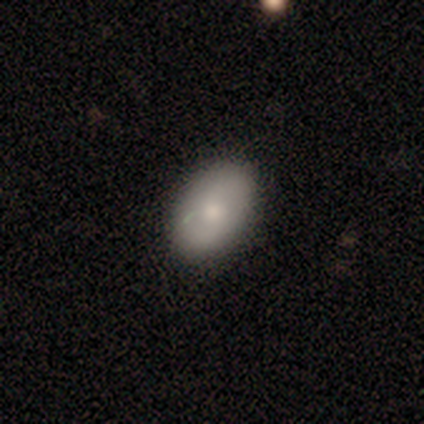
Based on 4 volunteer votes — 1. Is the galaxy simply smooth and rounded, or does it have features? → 75% smooth, 25% featured or disk, 0% star or artifact.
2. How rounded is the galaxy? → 100% in between, 0% round, 0% cigar-shaped.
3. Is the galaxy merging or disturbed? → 75% none, 25% minor disturbance, 0% major disturbance, 0% merger.